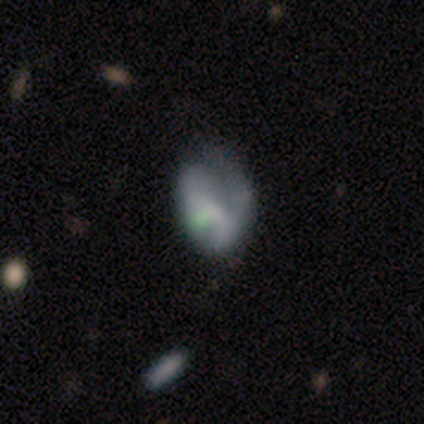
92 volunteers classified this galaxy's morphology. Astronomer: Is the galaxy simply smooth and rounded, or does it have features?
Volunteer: featured or disk — 51% (runner-up: smooth, 34%).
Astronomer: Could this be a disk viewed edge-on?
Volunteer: no — 96%.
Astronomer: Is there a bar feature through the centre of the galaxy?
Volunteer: no — 58% (runner-up: weak, 33%).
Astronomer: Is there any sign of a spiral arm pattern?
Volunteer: no — 60% (runner-up: yes, 40%).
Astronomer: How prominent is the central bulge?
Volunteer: none — 56%.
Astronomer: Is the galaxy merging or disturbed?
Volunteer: major disturbance — 42% (runner-up: minor disturbance, 35%).